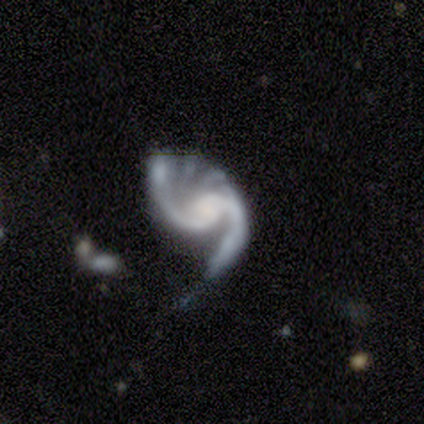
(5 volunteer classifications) Overall: featured or disk (100%). Edge-on disk: no (100%). Bar: strong (40%, tied with no). Spiral arms: yes (100%). Spiral arm count: 2 (100%). Spiral winding: medium (40%, tied with loose). Bulge size: moderate (60%; large 20%). Merging: major disturbance (60%; none 20%).